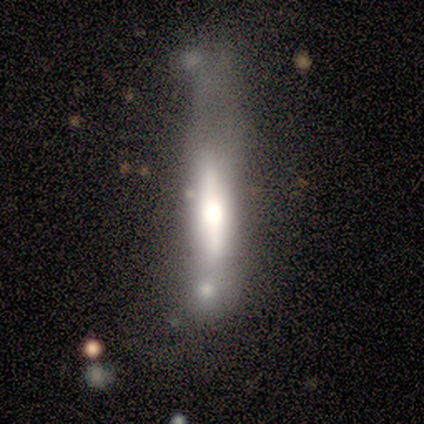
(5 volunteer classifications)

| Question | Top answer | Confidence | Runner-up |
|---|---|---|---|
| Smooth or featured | featured or disk | 100% | — |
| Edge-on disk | yes | 80% | no (20%) |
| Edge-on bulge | rounded | 100% | — |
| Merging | none | 40% | tied: major disturbance (40%) |